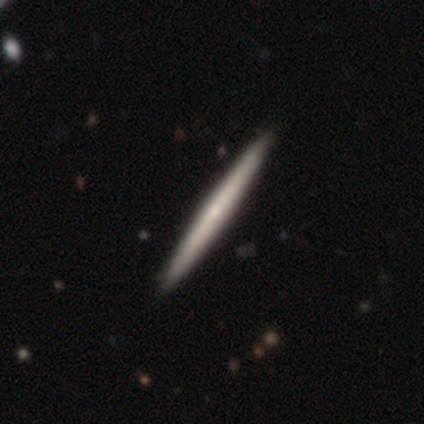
Smooth or featured? featured or disk (56%)
Edge-on disk? yes (91%)
Edge-on bulge? none (60%)
Merging? none (84%)